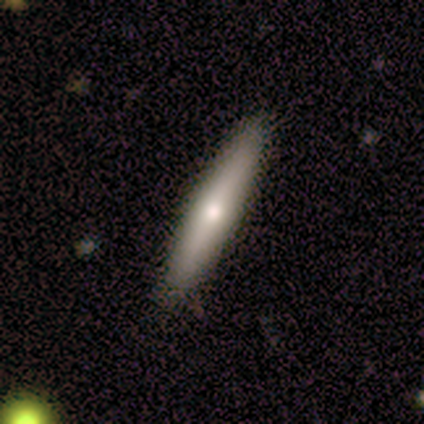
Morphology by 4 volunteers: smooth_or_featured: smooth (p=0.75) [alt: featured or disk p=0.25]
how_rounded: cigar-shaped (p=0.67) [alt: in between p=0.33]
merging: none (p=0.75) [alt: minor disturbance p=0.25]